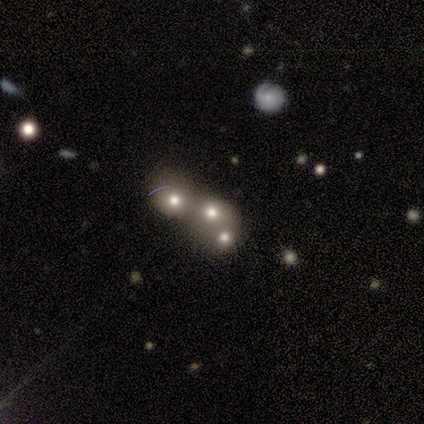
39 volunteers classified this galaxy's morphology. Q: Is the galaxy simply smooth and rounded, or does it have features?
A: smooth — 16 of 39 (41%).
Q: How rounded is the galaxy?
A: round — 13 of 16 (81%).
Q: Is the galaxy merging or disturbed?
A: merger — 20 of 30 (67%).